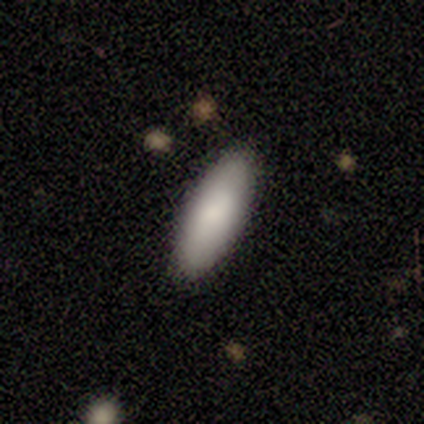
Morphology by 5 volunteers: Smooth or featured?
  - smooth: 80% *
  - featured or disk: 20%
  - star or artifact: 0%
How rounded?
  - in between: 50% * (tied)
  - cigar-shaped: 50% * (tied)
  - round: 0%
Merging?
  - none: 100% *
  - minor disturbance: 0%
  - major disturbance: 0%
  - merger: 0%